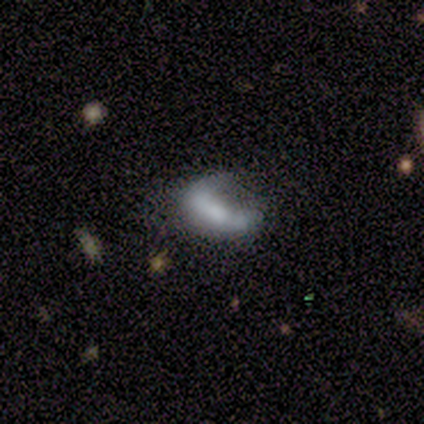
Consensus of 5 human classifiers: A featured or disk galaxy (60%) with a weak bar (50%, tied with no), no spiral arms (100%) and a small central bulge (50%, tied with none). Merging: minor disturbance (40%, tied with major disturbance).